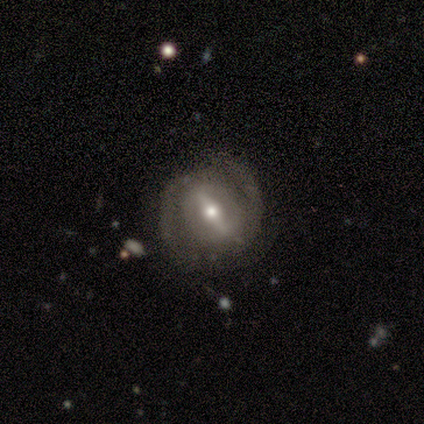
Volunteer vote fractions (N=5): smooth_or_featured: featured or disk (p=0.80) [alt: smooth p=0.20]
disk_edge_on: no (p=0.75) [alt: yes p=0.25]
bar: weak (p=0.67) [alt: strong p=0.33]
has_spiral_arms: no (p=0.67) [alt: yes p=0.33]
bulge_size: moderate (p=0.67) [alt: small p=0.33]
merging: none (p=0.80) [alt: merger p=0.20]